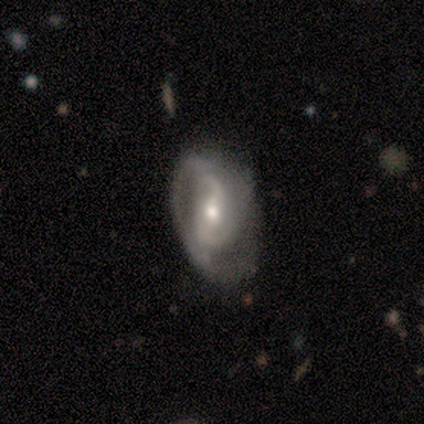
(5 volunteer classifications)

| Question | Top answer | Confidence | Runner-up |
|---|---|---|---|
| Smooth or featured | featured or disk | 80% | smooth (20%) |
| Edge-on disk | no | 75% | yes (25%) |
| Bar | strong | 67% | no (33%) |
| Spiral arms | yes | 100% | — |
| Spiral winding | tight | 33% | tied: medium (33%), loose (33%) |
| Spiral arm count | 2 | 100% | — |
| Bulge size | moderate | 100% | — |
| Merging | none | 60% | minor disturbance (20%) |